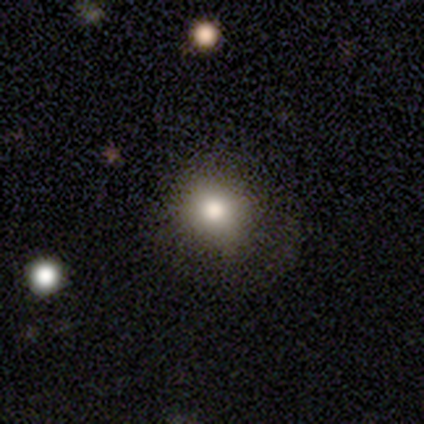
Morphology: type=smooth (100%); roundness=round (80%); merging=none (100%).